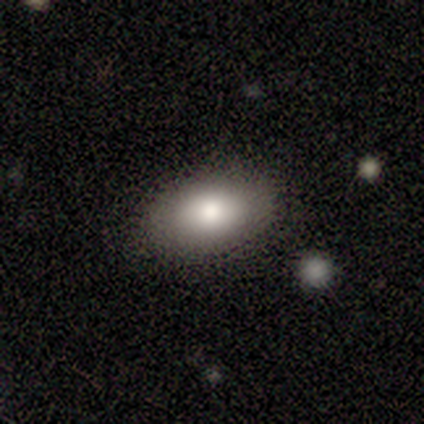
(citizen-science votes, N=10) Overall: smooth (100%). How rounded: in between (100%). Merging: none (60%; minor disturbance 40%).